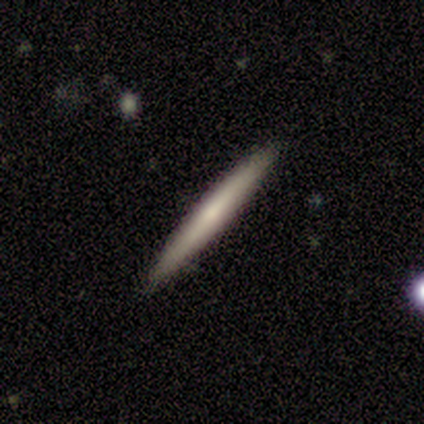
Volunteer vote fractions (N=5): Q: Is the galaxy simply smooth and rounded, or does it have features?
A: smooth — 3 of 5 (60%).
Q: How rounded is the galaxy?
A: cigar-shaped — 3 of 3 (100%).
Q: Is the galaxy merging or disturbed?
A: none — 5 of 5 (100%).